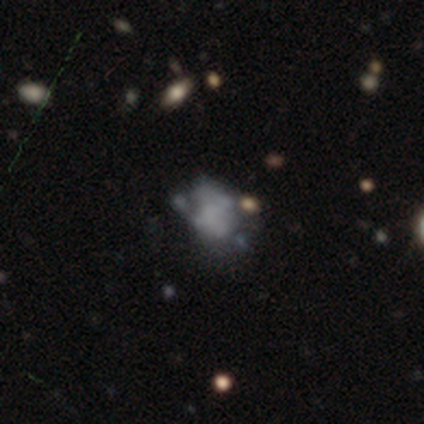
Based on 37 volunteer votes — Smooth or featured: smooth — 41% (featured or disk — 38%)
How rounded: in between — 73% (round — 27%)
Merging: none — 45% (major disturbance — 31%)